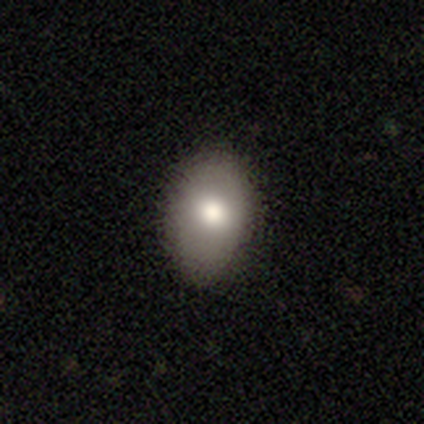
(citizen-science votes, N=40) Q: Smooth or featured?
A: smooth (68%); runner-up: featured or disk (20%)
Q: How rounded?
A: in between (96%); runner-up: round (4%)
Q: Merging?
A: none (80%); runner-up: minor disturbance (17%)